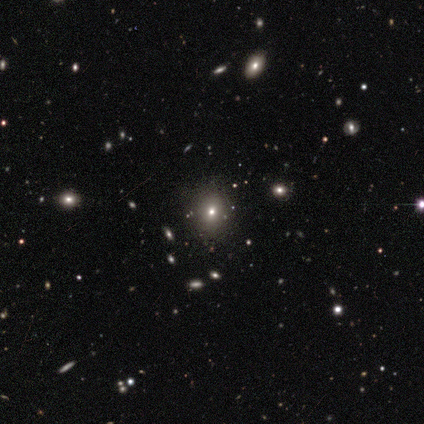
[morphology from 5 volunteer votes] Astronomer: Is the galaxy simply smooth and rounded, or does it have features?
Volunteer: smooth — 80%.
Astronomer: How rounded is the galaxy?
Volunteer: round — 75%.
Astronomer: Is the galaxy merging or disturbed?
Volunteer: none — 80%.